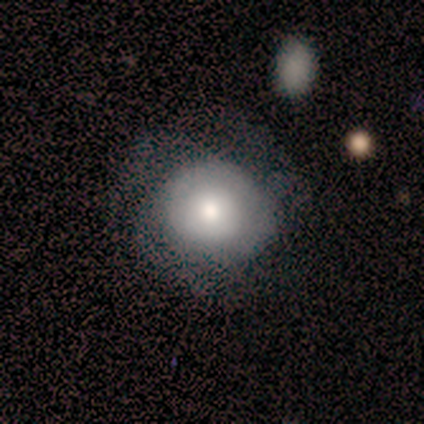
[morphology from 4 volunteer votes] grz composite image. It shows a smooth galaxy with no disk features (75%) that is round (100%). Merging: major disturbance (50%).